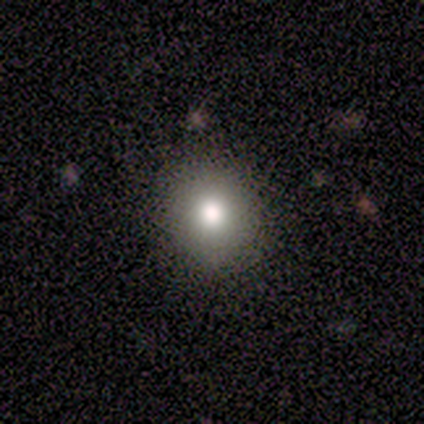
smooth_or_featured: smooth (p=0.80) [alt: star or artifact p=0.20]
how_rounded: round (p=1.00)
merging: none (p=1.00)